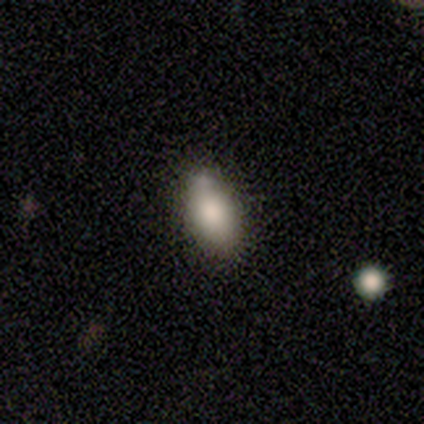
Overall: smooth (86%). How rounded: in between (83%). Merging: none (71%).